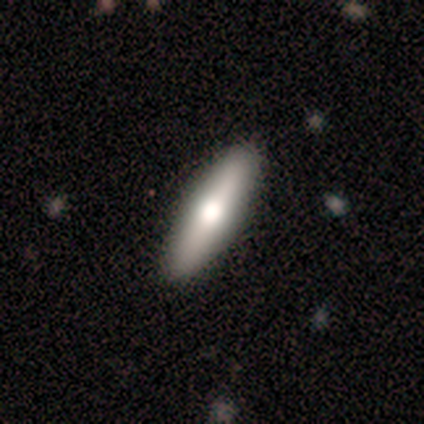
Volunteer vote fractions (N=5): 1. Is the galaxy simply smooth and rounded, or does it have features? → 60% featured or disk, 40% smooth, 0% star or artifact.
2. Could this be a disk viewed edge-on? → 100% yes, 0% no.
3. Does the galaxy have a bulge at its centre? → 67% rounded, 33% none, 0% boxy.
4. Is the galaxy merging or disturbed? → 100% none, 0% minor disturbance, 0% major disturbance, 0% merger.